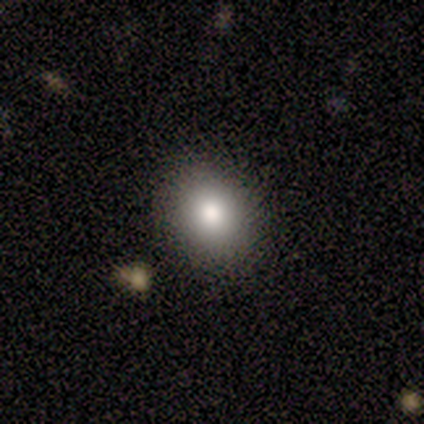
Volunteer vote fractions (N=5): This appears to be a smooth galaxy with no disk features (100%) that is round (80%). Merging: none (80%).